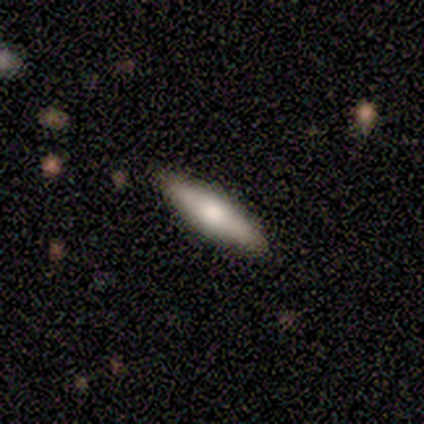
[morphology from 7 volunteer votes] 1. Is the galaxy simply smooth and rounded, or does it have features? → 86% featured or disk, 14% smooth, 0% star or artifact.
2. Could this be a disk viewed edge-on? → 83% yes, 17% no.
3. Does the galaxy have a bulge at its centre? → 80% rounded, 20% boxy, 0% none.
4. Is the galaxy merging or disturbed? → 100% none, 0% minor disturbance, 0% major disturbance, 0% merger.